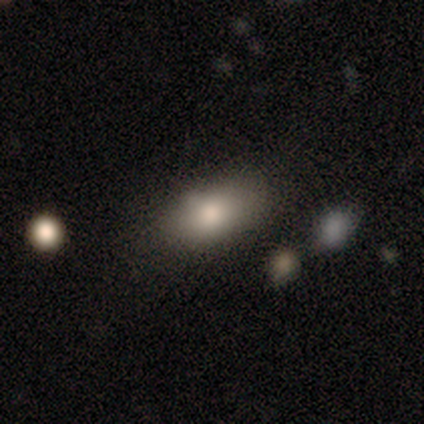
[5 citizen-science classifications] Morphology: type=smooth (100%); roundness=in between (100%); merging=none (100%).